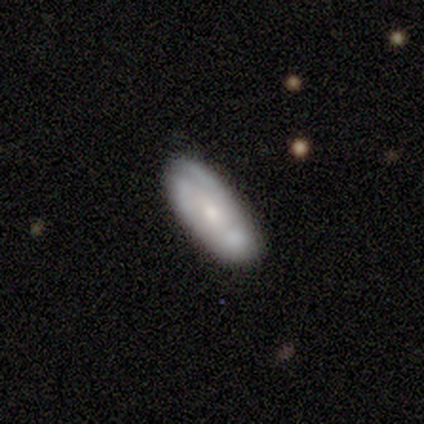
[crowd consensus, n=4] Morphology: type=smooth (75%); roundness=in between (100%); merging=none (100%).